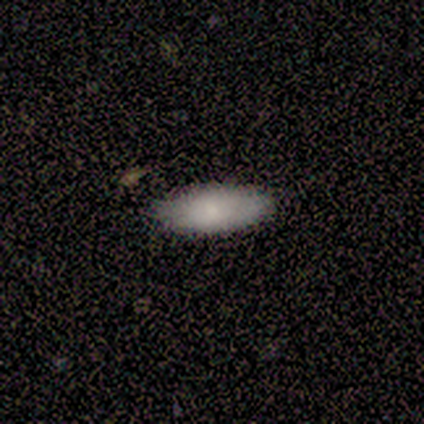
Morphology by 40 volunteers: Smooth or featured?
  - smooth: 80% *
  - featured or disk: 20%
  - star or artifact: 0%
How rounded?
  - in between: 91% *
  - cigar-shaped: 9%
  - round: 0%
Merging?
  - none: 88% *
  - minor disturbance: 12%
  - major disturbance: 0%
  - merger: 0%